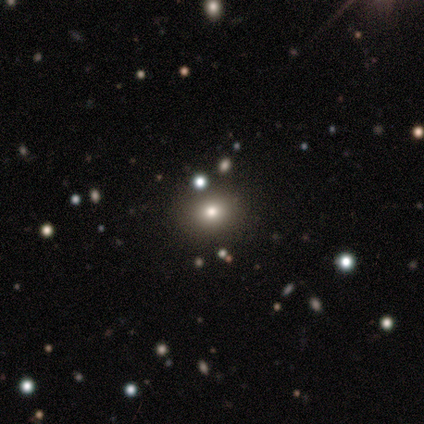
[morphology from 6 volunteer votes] Volunteers were most divided on "smooth or featured": smooth: 50%, star or artifact: 33%, featured or disk: 17%. More confident: how rounded — round (100%); merging — none (100%).